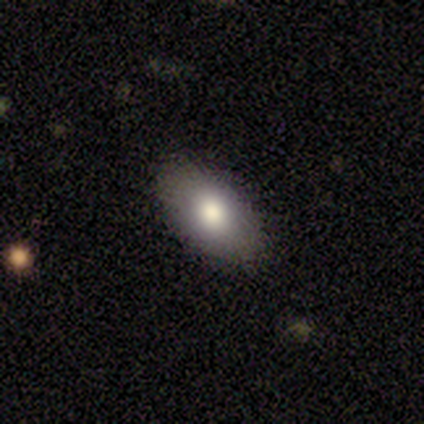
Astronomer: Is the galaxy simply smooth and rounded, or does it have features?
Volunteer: smooth — 100%.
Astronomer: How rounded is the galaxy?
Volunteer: in between — 100%.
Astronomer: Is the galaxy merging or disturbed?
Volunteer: none — 100%.